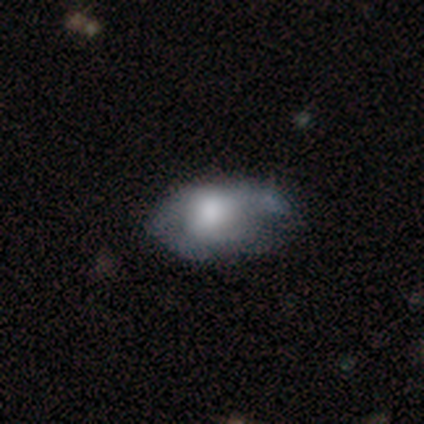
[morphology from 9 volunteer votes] smooth_or_featured: smooth (p=0.56) [alt: featured or disk p=0.44]
how_rounded: in between (p=1.00)
merging: none (p=0.44) [alt: major disturbance p=0.33]